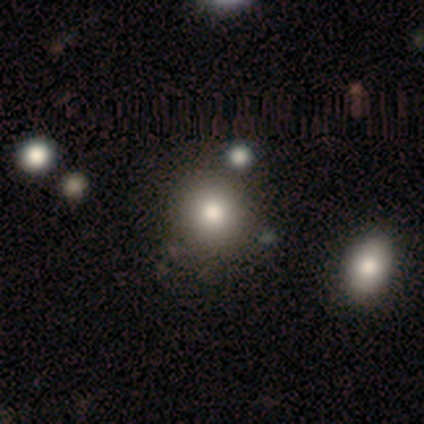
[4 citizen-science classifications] Smooth or featured: smooth — 75% (featured or disk — 25%)
How rounded: round — 100%
Merging: none — 75% (minor disturbance — 25%)